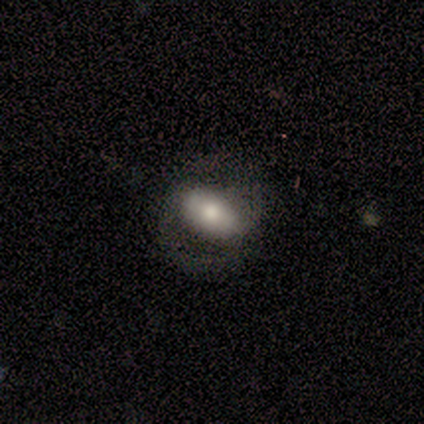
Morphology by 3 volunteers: This appears to be a smooth galaxy with no disk features (33%, tied with featured or disk and star or artifact) that is in between round and cigar-shaped (100%). Merging: none (100%).